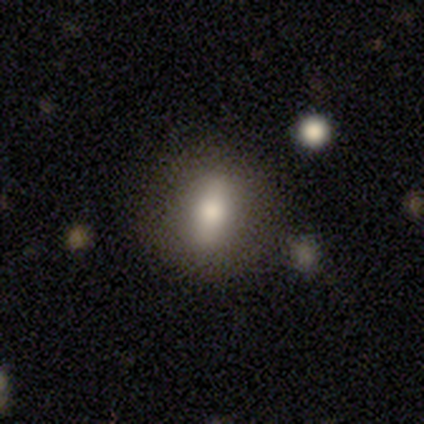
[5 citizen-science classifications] Smooth or featured? smooth (40%, tied with featured or disk)
How rounded? round (100%)
Merging? none (75%)